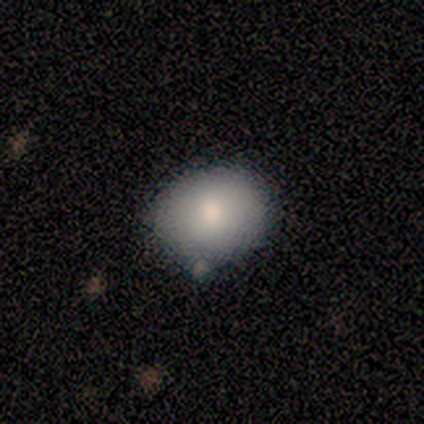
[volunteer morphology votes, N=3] smooth 67%, featured or disk 33%, star or artifact 0%. Down the decision tree: how rounded — round (50%, tied with in between); merging — none (67%).